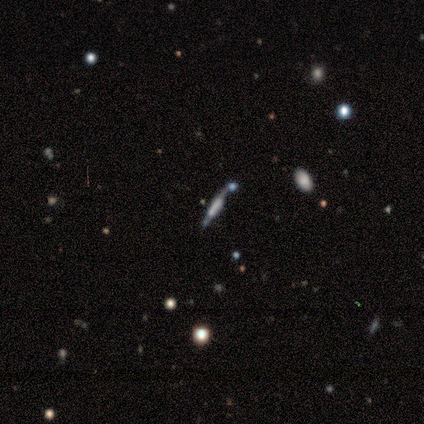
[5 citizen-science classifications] featured or disk 100%, smooth 0%, star or artifact 0%. Down the decision tree: edge-on disk — yes (100%); edge-on bulge — boxy (100%); merging — none (60%).